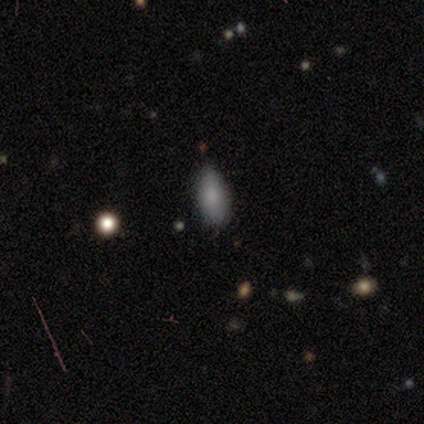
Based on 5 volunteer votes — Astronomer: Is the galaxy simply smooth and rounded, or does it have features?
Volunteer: smooth — 80%.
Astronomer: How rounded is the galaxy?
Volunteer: in between — 100%.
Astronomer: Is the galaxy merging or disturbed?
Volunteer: none — 60% (runner-up: minor disturbance, 40%).